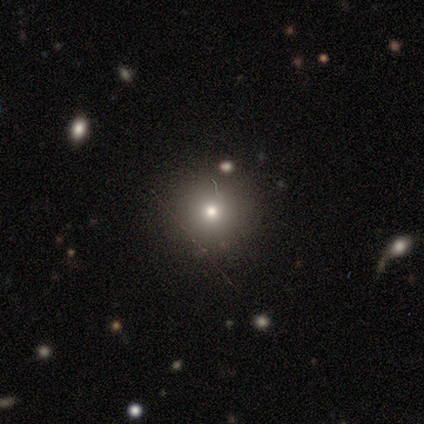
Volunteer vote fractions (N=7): smooth 100%, featured or disk 0%, star or artifact 0%. Down the decision tree: how rounded — round (100%); merging — none (100%).